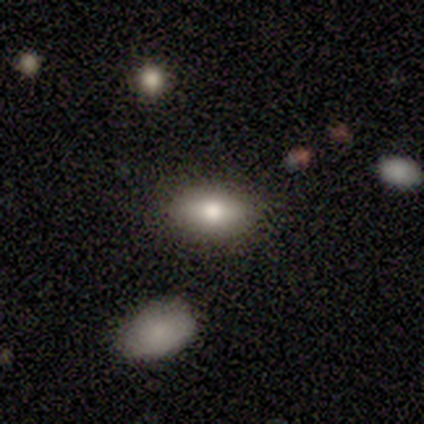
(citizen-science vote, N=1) Smooth or featured? smooth (100%)
How rounded? in between (100%)
Merging? none (100%)